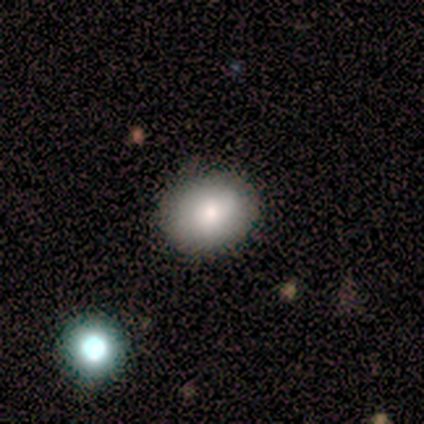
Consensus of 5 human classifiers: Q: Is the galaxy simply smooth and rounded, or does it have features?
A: smooth — 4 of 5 (80%).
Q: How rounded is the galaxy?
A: in between — 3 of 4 (75%).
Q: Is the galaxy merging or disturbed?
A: none — 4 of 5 (80%).